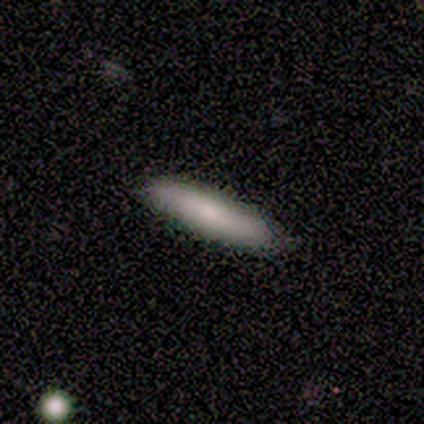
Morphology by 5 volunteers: This is likely a smooth galaxy (60%). How rounded: likely cigar-shaped (67%). Merging: clearly none (100%).